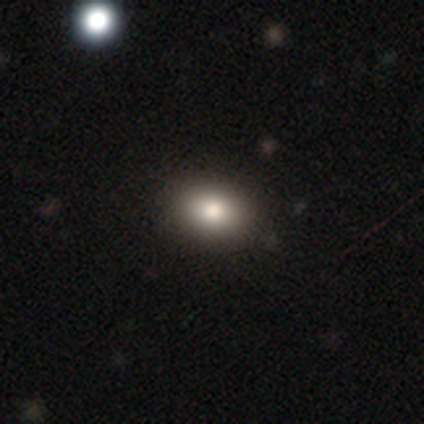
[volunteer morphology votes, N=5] Q: Smooth or featured?
A: smooth (80%); runner-up: featured or disk (20%)
Q: How rounded?
A: in between (75%); runner-up: cigar-shaped (25%)
Q: Merging?
A: none (100%)